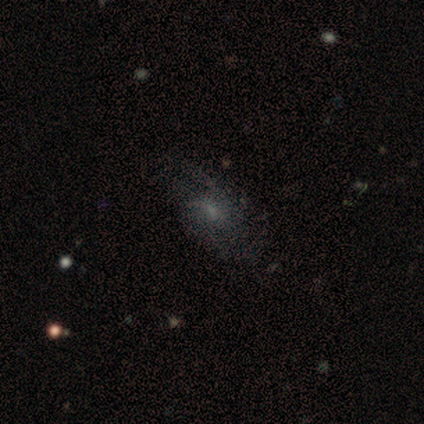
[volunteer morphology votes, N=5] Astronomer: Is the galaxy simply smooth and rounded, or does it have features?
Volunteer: featured or disk — 60% (runner-up: smooth, 40%).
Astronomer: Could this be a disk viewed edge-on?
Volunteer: no — 100%.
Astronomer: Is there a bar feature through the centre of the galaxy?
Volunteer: no — 67%.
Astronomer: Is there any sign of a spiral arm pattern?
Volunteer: yes — 100%.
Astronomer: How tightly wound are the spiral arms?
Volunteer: medium — 67%.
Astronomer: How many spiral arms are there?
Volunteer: can't tell — 67%.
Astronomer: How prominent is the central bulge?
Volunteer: small — 67%.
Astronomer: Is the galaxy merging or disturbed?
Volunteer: none — 80%.